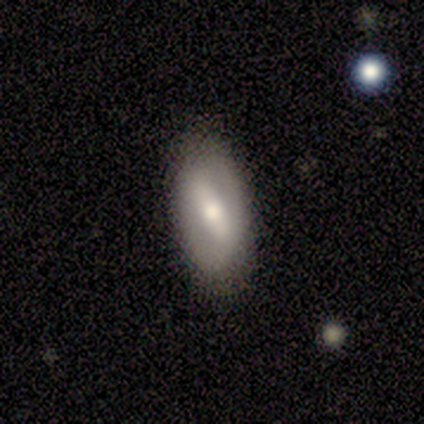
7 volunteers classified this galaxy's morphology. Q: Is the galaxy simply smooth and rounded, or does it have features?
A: smooth — 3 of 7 (43%).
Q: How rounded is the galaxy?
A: in between — 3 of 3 (100%).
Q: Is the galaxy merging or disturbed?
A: none — 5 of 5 (100%).